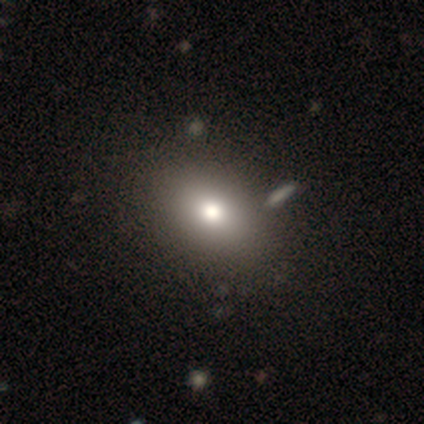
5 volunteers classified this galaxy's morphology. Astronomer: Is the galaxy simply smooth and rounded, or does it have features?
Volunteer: smooth — 80%.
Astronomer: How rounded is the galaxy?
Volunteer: in between — 75%.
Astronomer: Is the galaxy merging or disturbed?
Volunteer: none — 100%.